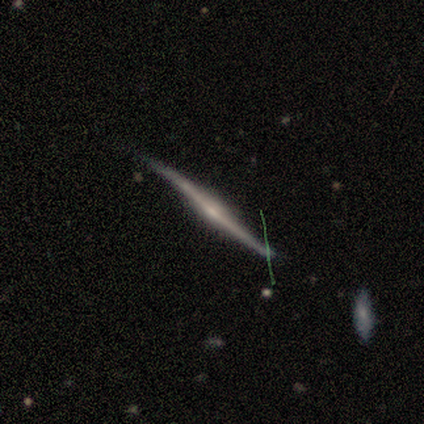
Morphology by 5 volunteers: Volunteers were most divided on "edge-on bulge": rounded: 60%, boxy: 20%, none: 20%. More confident: smooth or featured — featured or disk (100%); edge-on disk — yes (100%); merging — none (80%).